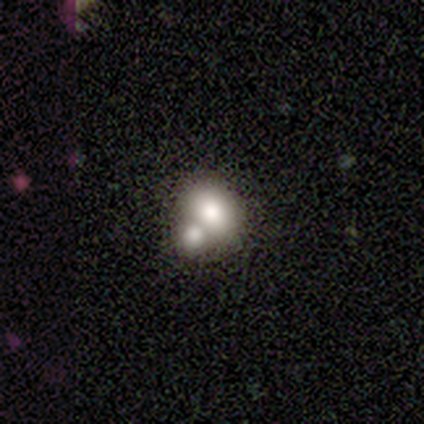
This is possibly a smooth galaxy (50%). How rounded: clearly in between (100%). Merging: likely merger (67%).